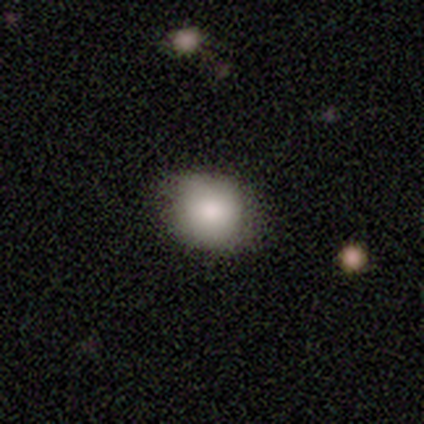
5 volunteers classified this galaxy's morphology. Smooth or featured? 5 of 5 (100%) said smooth. How rounded? 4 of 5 (80%) said round. Merging? 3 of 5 (60%) said none.